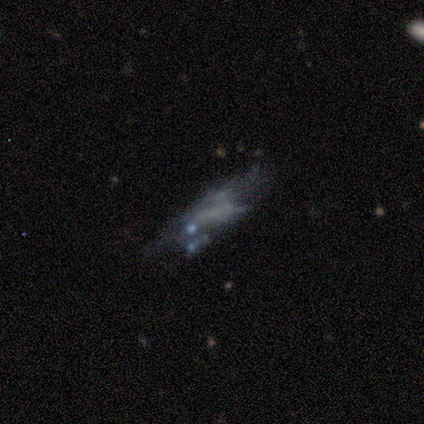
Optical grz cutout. It shows a smooth galaxy with no disk features (40%, tied with featured or disk) that is in between round and cigar-shaped (100%). Merging: minor disturbance (50%, tied with merger).